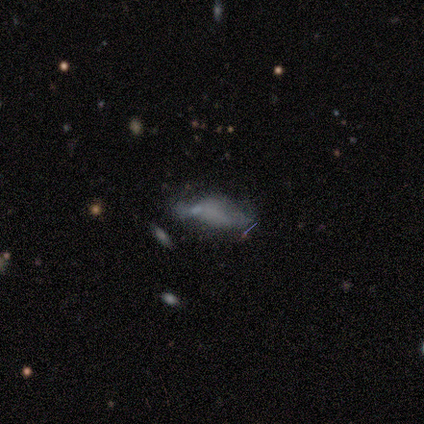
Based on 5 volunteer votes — This appears to be a smooth galaxy with no disk features (60%) that is in between round and cigar-shaped (67%). Merging: none (40%).